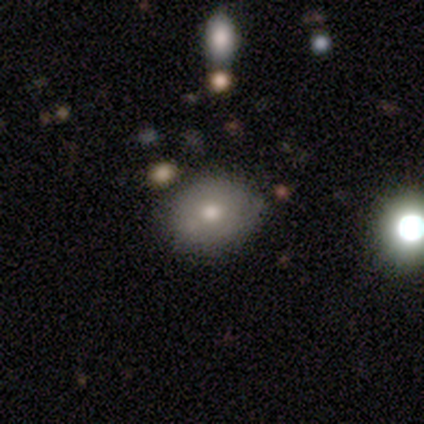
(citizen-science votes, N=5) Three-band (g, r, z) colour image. It shows a smooth galaxy with no disk features (80%) that is in between round and cigar-shaped (75%). Merging: none (50%, tied with minor disturbance).